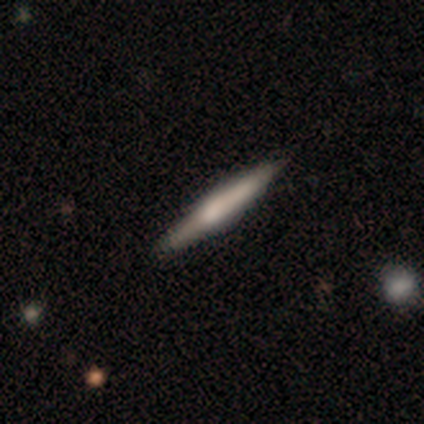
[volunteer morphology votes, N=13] Smooth or featured? smooth (62%)
How rounded? cigar-shaped (88%)
Merging? none (69%)